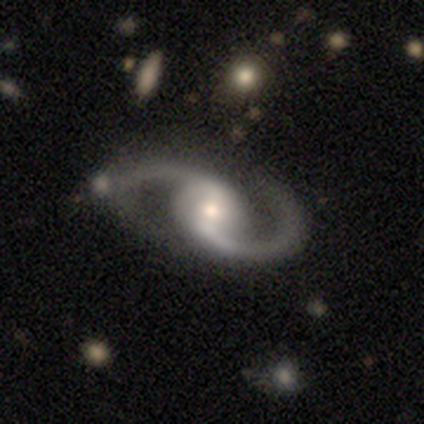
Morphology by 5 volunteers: A featured or disk galaxy (100%) with no bar (60%), 2 (100%) medium (40%, tied with loose) spiral arms (100%) and a moderate central bulge (80%).

Vote fractions:
- Smooth or featured? featured or disk: 100% / smooth: 0% / star or artifact: 0%
- Edge-on disk? no: 100% / yes: 0%
- Bar? no: 60% / strong: 20% / weak: 20%
- Spiral arms? yes: 100% / no: 0%
- Spiral winding? medium: 40% (tied) / loose: 40% (tied) / tight: 20%
- Spiral arm count? 2: 100% / 1: 0% / 3: 0% / 4: 0% / more than 4: 0% / can't tell: 0%
- Bulge size? moderate: 80% / large: 20% / dominant: 0% / small: 0% / none: 0%
- Merging? none: 60% / minor disturbance: 20% / major disturbance: 20% / merger: 0%